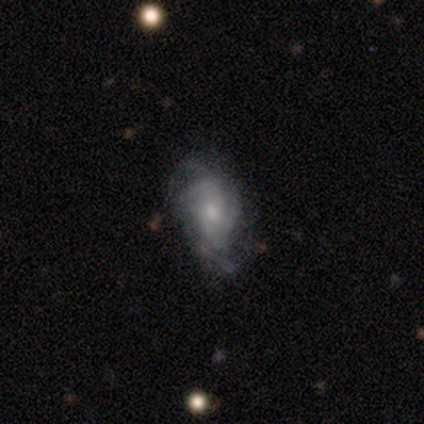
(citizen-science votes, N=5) Smooth or featured? featured or disk (80%)
Edge-on disk? no (100%)
Bar? no (75%)
Spiral arms? yes (100%)
Spiral winding? medium (50%, tied with loose)
Spiral arm count? can't tell (75%)
Bulge size? moderate (50%, tied with small)
Merging? none (40%, tied with major disturbance)